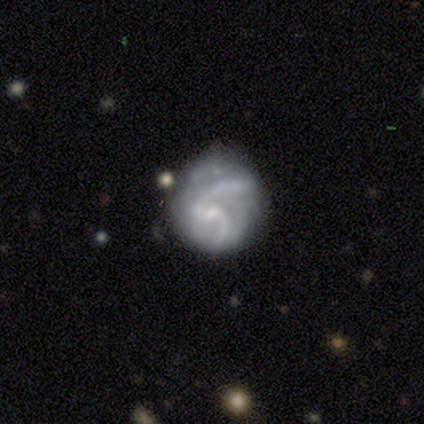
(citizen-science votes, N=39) Smooth or featured?
  - featured or disk: 79% *
  - smooth: 13%
  - star or artifact: 8%
Edge-on disk?
  - no: 100% *
  - yes: 0%
Bar?
  - no: 65% *
  - weak: 29%
  - strong: 6%
Spiral arms?
  - yes: 81% *
  - no: 19%
Spiral winding?
  - medium: 56% *
  - tight: 32%
  - loose: 12%
Spiral arm count?
  - 2: 60% *
  - can't tell: 16%
  - 3: 8%
  - more than 4: 8%
  - 1: 4%
  - 4: 4%
Bulge size?
  - small: 77% *
  - moderate: 13%
  - none: 10%
  - dominant: 0%
  - large: 0%
Merging?
  - none: 58% *
  - minor disturbance: 22%
  - major disturbance: 14%
  - merger: 6%